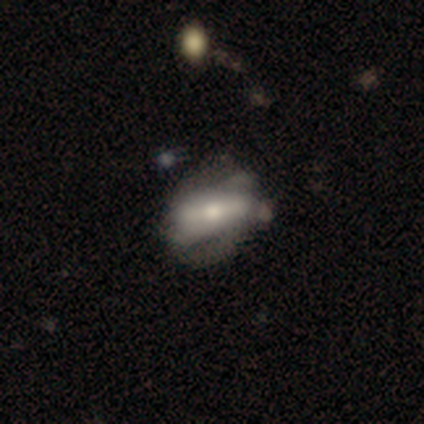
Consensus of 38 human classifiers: Smooth or featured? 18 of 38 (47%) said featured or disk. Edge-on disk? 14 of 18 (78%) said no. Bar? 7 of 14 (50%) said strong. Spiral arms? 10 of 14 (71%) said no. Bulge size? 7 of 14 (50%) said moderate. Merging? 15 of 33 (45%) said minor disturbance.